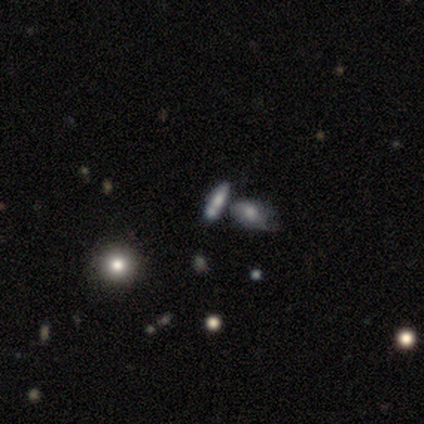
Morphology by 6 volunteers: This appears to be a smooth galaxy with no disk features (67%) that is in between round and cigar-shaped (50%, tied with cigar-shaped). Merging: none (60%).